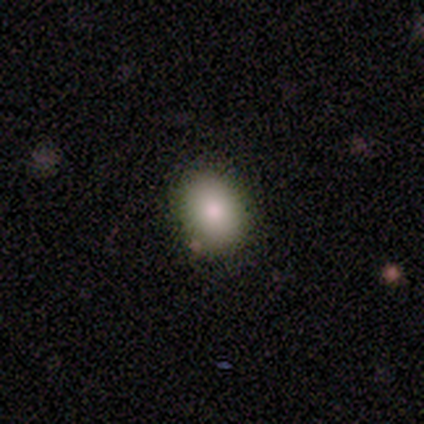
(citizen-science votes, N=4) Smooth or featured? 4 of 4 (100%) said smooth. How rounded? 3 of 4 (75%) said in between. Merging? 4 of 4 (100%) said none.